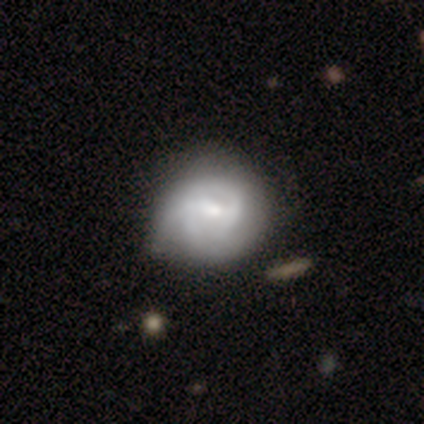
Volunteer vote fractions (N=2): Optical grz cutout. It shows a smooth galaxy with no disk features (50%, tied with featured or disk) that is round (100%). Merging: none (100%).